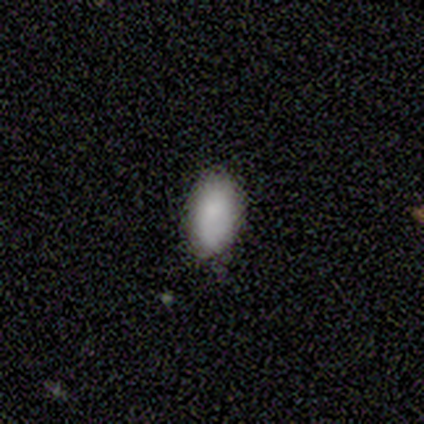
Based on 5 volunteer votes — Q: Smooth or featured?
A: smooth (100%)
Q: How rounded?
A: in between (100%)
Q: Merging?
A: none (80%); runner-up: minor disturbance (20%)